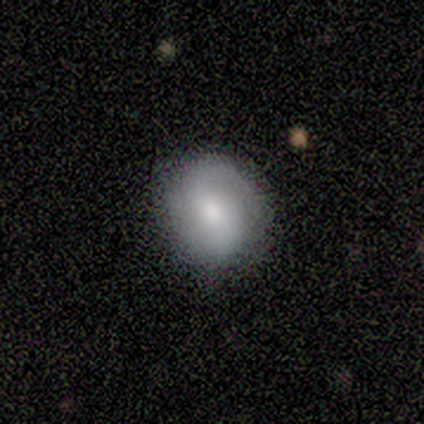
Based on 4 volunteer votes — A smooth galaxy with no disk features (50%) that is round (100%). Merging: none (100%).